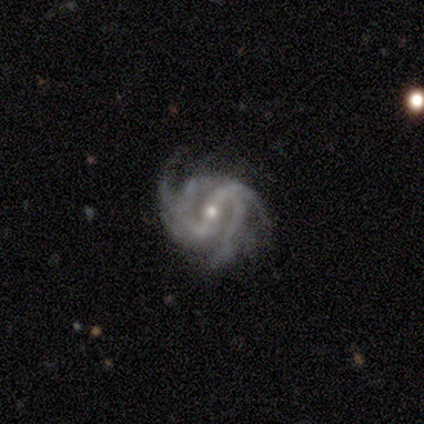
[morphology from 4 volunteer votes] Volunteers were most divided on "bulge size" (2-way tie): moderate: 50%, small: 50%, dominant: 0%, large: 0%, none: 0%. More confident: smooth or featured — featured or disk (100%); edge-on disk — no (100%); spiral arms — yes (100%); spiral winding — tight (75%); bar — strong (50%); spiral arm count — 2 (50%); merging — major disturbance (50%).